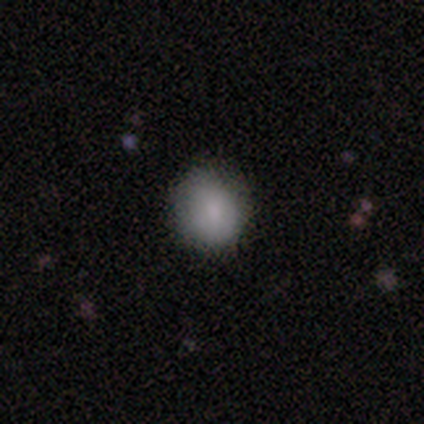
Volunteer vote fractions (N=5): This is clearly a smooth galaxy (80%). How rounded: likely round (75%). Merging: clearly none (100%).